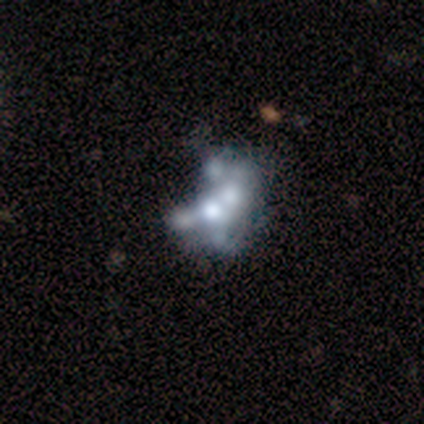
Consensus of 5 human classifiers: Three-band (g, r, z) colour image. It shows a featured or disk galaxy (100%) with no bar (100%), no spiral arms (100%) and a moderate central bulge (60%). Merging: none (60%).